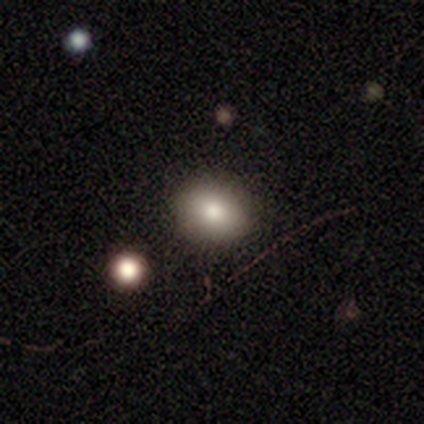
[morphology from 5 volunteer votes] Smooth or featured? 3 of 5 (60%) said smooth. How rounded? 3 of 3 (100%) said in between. Merging? 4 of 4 (100%) said none.